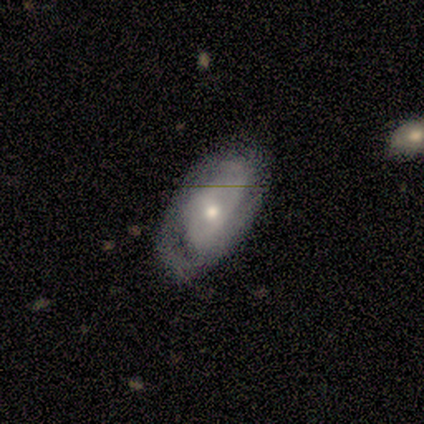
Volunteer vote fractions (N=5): Overall: featured or disk (60%; star or artifact 40%). Edge-on disk: no (67%; yes 33%). Bar: no (100%). Spiral arms: no (100%). Bulge size: small (100%). Merging: none (67%; minor disturbance 33%).